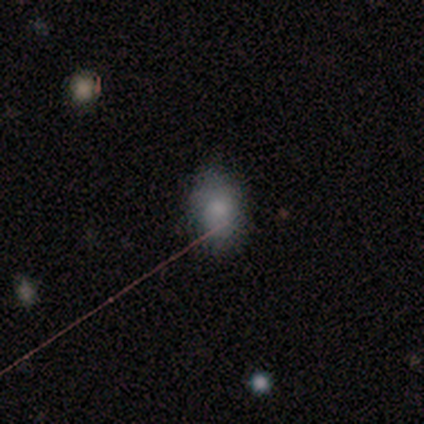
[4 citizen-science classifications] Overall: smooth (100%). How rounded: in between (100%). Merging: none (100%).